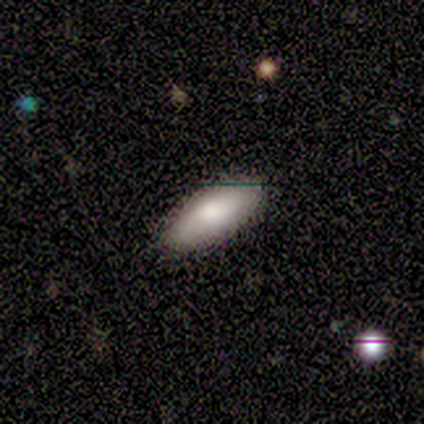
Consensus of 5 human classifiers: smooth_or_featured: smooth (p=1.00)
how_rounded: in between (p=0.60) [alt: cigar-shaped p=0.40]
merging: none (p=1.00)